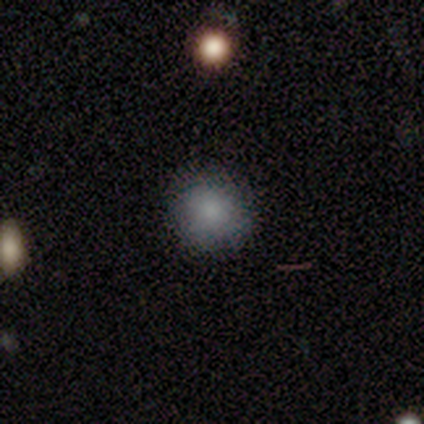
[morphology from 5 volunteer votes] Smooth or featured: smooth — 80% (star or artifact — 20%)
How rounded: round — 100%
Merging: none — 75% (minor disturbance — 25%)